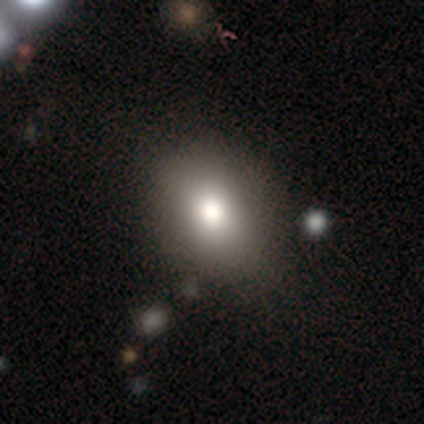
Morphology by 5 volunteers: Q: Smooth or featured?
A: smooth (80%); runner-up: star or artifact (20%)
Q: How rounded?
A: round (50%); tied with: in between (50%)
Q: Merging?
A: none (75%); runner-up: minor disturbance (25%)